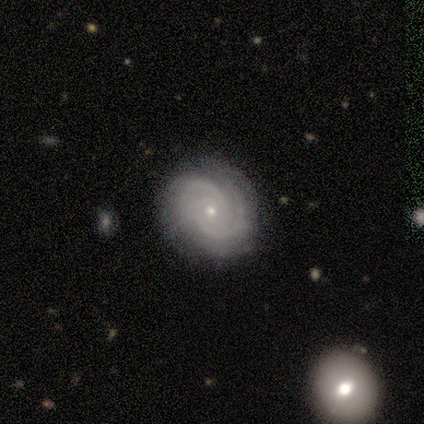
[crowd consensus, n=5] featured or disk 80%, smooth 20%, star or artifact 0%. Down the decision tree: edge-on disk — no (100%); bar — weak (50%); spiral arms — yes (100%); spiral arm count — 2 (100%); spiral winding — tight (75%); bulge size — moderate (50%, tied with small); merging — none (60%).